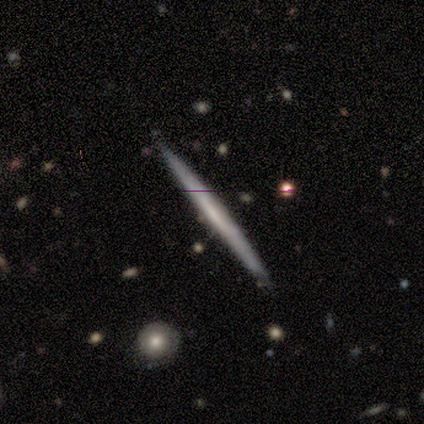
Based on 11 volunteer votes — Q: Smooth or featured?
A: featured or disk (73%); runner-up: smooth (27%)
Q: Edge-on disk?
A: yes (100%)
Q: Edge-on bulge?
A: none (88%); runner-up: rounded (12%)
Q: Merging?
A: none (82%); runner-up: minor disturbance (9%)